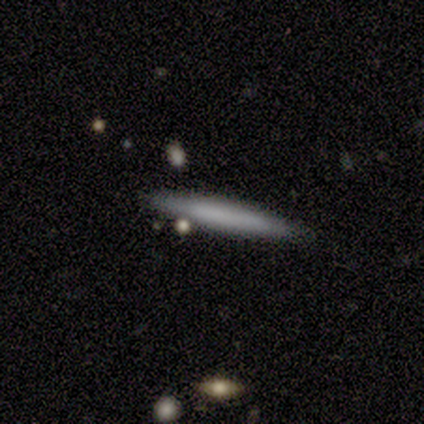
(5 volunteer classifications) Morphology: type=featured or disk (60%); edge-on=yes (100%); edge-on bulge=none (67%); merging=none (60%).